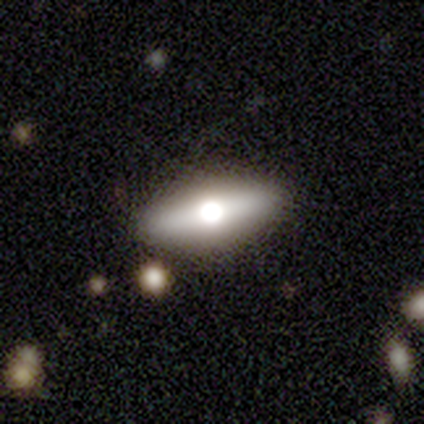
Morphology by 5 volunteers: Smooth or featured? featured or disk (80%)
Edge-on disk? yes (50%, tied with no)
Edge-on bulge? rounded (100%)
Merging? none (80%)